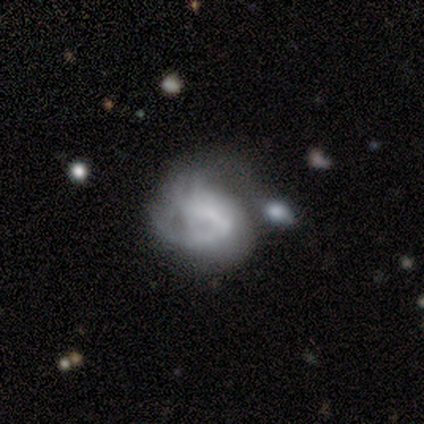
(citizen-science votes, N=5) Smooth or featured: featured or disk — 60% (smooth — 40%)
Edge-on disk: no — 100%
Bar: no — 100%
Spiral arms: no — 100%
Bulge size: none — 100%
Merging: major disturbance — 60% (none — 40%)